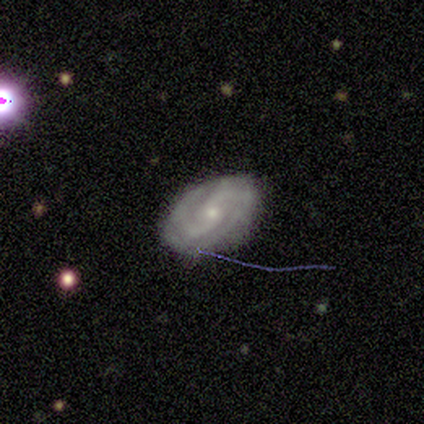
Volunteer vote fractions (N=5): Overall: featured or disk (60%; smooth 40%). Edge-on disk: no (100%). Bar: no (100%). Spiral arms: yes (100%). Spiral arm count: 2 (100%). Spiral winding: tight (33%, tied with medium and loose). Bulge size: small (67%; moderate 33%). Merging: none (60%; minor disturbance 20%).